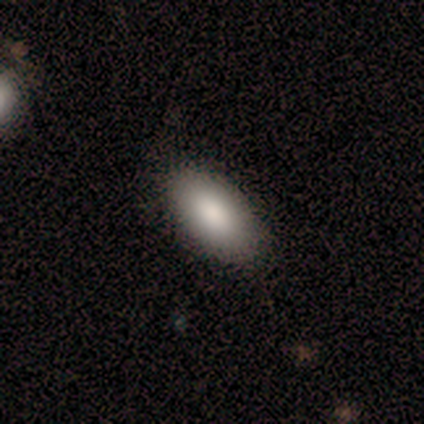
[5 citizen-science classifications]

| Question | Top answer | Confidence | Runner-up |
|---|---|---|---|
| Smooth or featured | smooth | 100% | — |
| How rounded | in between | 100% | — |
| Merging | none | 100% | — |